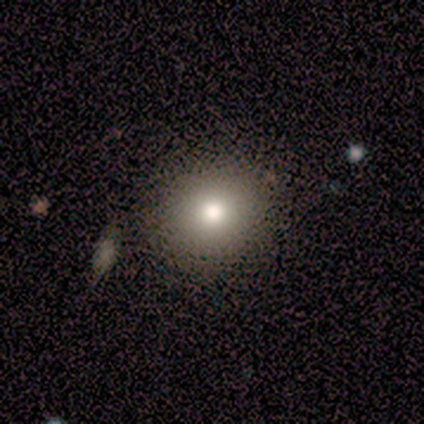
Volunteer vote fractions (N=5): Volunteers were most divided on "smooth or featured": smooth: 80%, featured or disk: 20%, star or artifact: 0%. More confident: how rounded — round (100%); merging — none (100%).